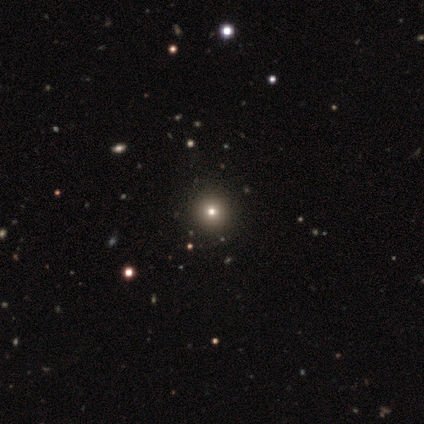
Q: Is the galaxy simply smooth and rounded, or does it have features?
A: star or artifact — 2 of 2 (100%).